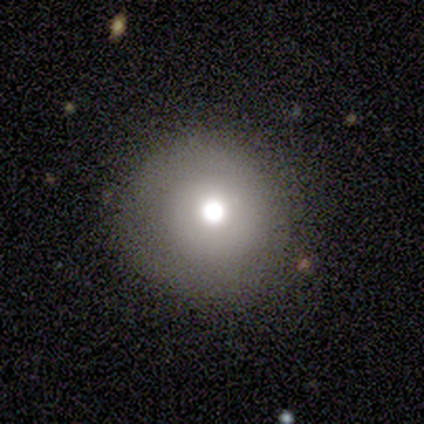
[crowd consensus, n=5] smooth-or-featured: smooth: 60% | featured or disk: 20% | star or artifact: 20%
  how-rounded: round: 100% | in between: 0% | cigar-shaped: 0%
  merging: none: 100% | minor disturbance: 0% | major disturbance: 0% | merger: 0%